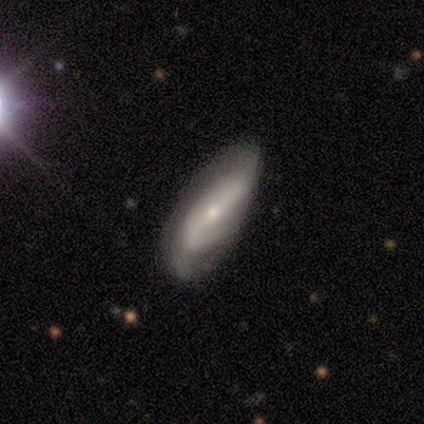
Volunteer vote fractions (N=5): Smooth or featured: featured or disk — 60% (smooth — 40%)
Edge-on disk: no — 67% (yes — 33%)
Bar: no — 100%
Spiral arms: yes — 100%
Spiral winding: loose — 100%
Spiral arm count: 2 — 100%
Bulge size: small — 100%
Merging: none — 60% (minor disturbance — 40%)